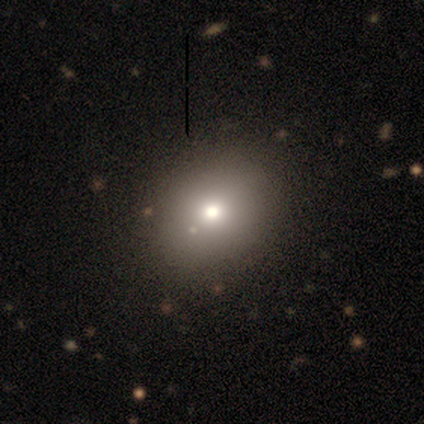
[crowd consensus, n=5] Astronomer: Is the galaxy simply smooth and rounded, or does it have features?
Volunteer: smooth — 80%.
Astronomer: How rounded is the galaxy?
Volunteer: in between — 75%.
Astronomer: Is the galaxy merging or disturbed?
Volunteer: none — 80%.